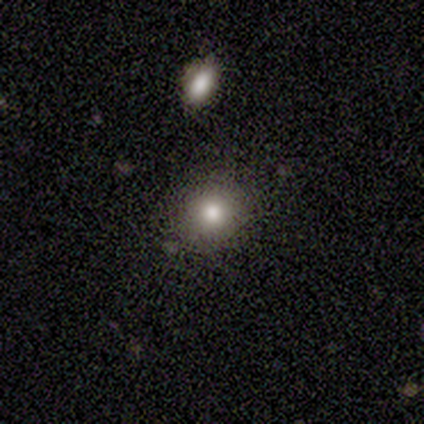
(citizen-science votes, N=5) Volunteers were most divided on "smooth or featured": smooth: 80%, star or artifact: 20%, featured or disk: 0%. More confident: how rounded — round (100%); merging — none (100%).